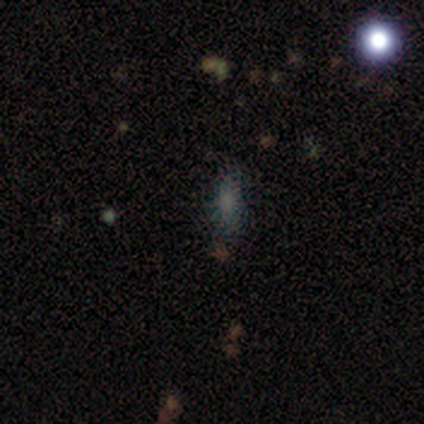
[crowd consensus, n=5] Morphology: type=featured or disk (40%, tied with star or artifact); edge-on=no (100%); bar=no (100%); spiral arms=no (100%); bulge=small (50%, tied with none); merging=none (100%).